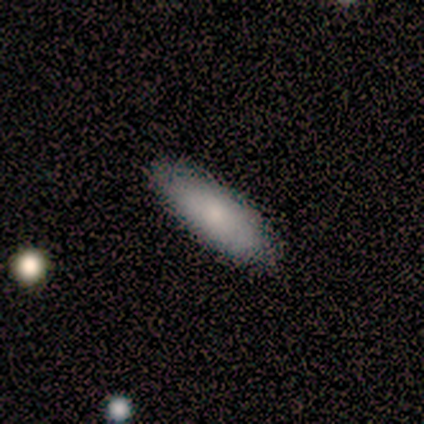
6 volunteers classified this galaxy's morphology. Smooth or featured? smooth (100%)
How rounded? in between (50%, tied with cigar-shaped)
Merging? none (83%)